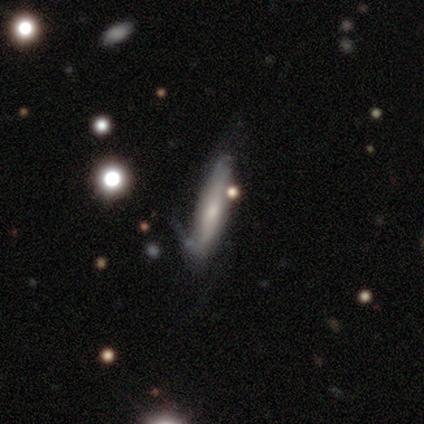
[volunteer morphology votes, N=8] This is possibly a smooth galaxy (50%, tied with featured or disk). How rounded: possibly in between (50%, tied with cigar-shaped). Merging: likely minor disturbance (62%).